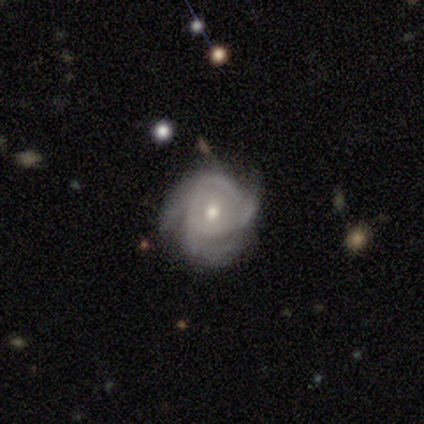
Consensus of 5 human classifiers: Smooth or featured? 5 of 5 (100%) said featured or disk. Edge-on disk? 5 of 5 (100%) said no. Bar? 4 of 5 (80%) said no. Spiral arms? 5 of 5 (100%) said yes. Spiral winding? 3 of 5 (60%) said tight. Spiral arm count? 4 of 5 (80%) said 3. Bulge size? 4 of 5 (80%) said moderate. Merging? 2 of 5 (40%, tied with minor disturbance) said none.